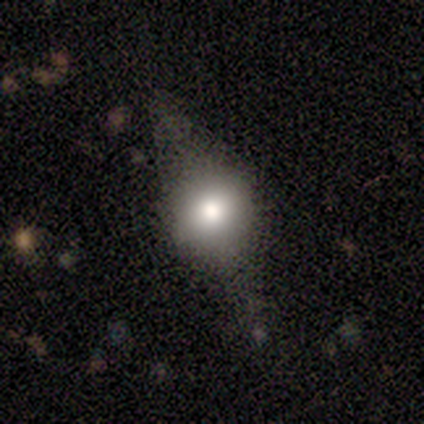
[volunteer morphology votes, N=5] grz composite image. It shows a smooth galaxy with no disk features (80%) that is in between round and cigar-shaped (75%). Merging: none (80%).